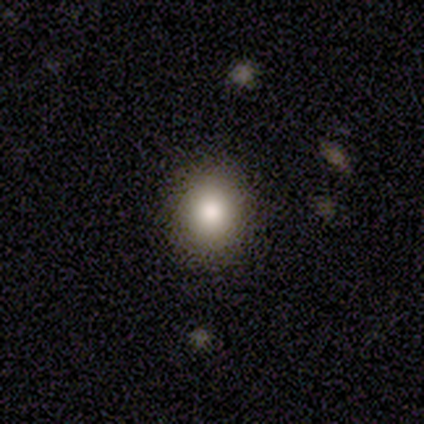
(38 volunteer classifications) A smooth galaxy with no disk features (84%) that is round (62%).

Vote fractions:
- Smooth or featured? smooth: 84% / star or artifact: 13% / featured or disk: 3%
- How rounded? round: 62% / in between: 38% / cigar-shaped: 0%
- Merging? none: 91% / minor disturbance: 9% / major disturbance: 0% / merger: 0%